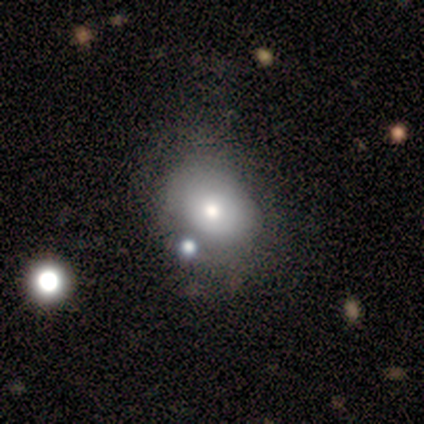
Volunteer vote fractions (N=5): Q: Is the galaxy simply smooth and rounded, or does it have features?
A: smooth — 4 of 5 (80%).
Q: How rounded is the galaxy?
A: round — 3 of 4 (75%).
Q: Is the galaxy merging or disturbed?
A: none — 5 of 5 (100%).